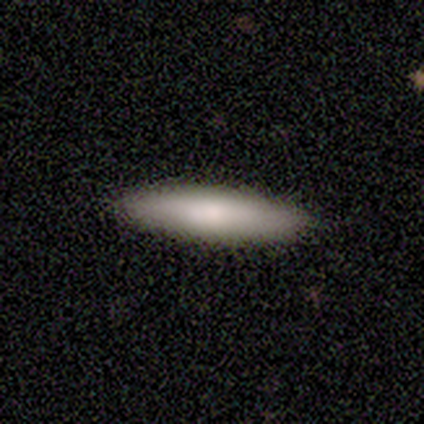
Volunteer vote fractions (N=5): Volunteers were most divided on "smooth or featured": smooth: 80%, featured or disk: 20%, star or artifact: 0%. More confident: how rounded — cigar-shaped (100%); merging — none (100%).